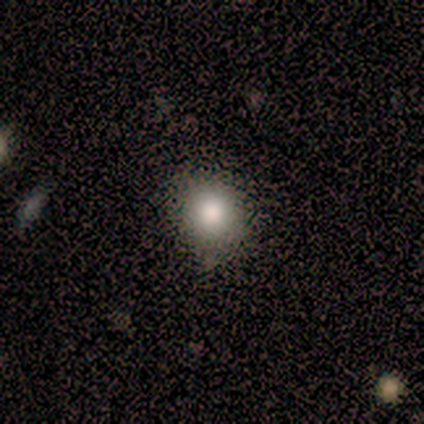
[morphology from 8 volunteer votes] Overall: smooth (88%). How rounded: round (86%). Merging: none (86%).